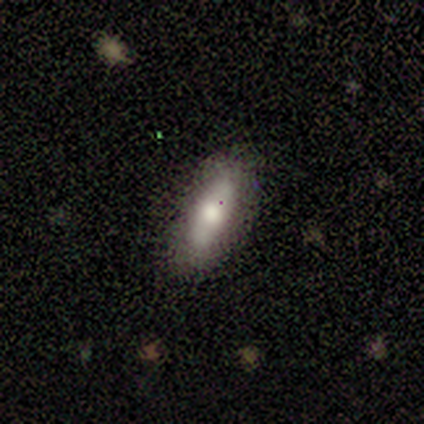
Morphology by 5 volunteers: smooth_or_featured: smooth (p=0.60) [alt: featured or disk p=0.40]
how_rounded: in between (p=0.67) [alt: cigar-shaped p=0.33]
merging: none (p=1.00)